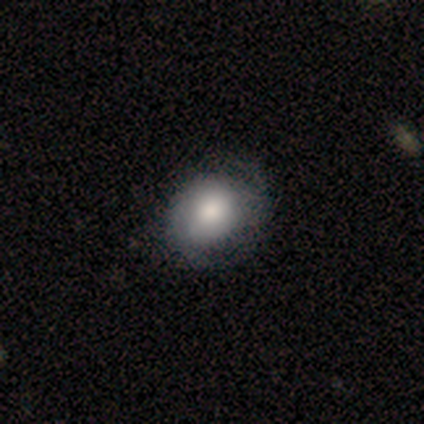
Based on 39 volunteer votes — A smooth galaxy with no disk features (54%) that is round (62%). Merging: none (54%).